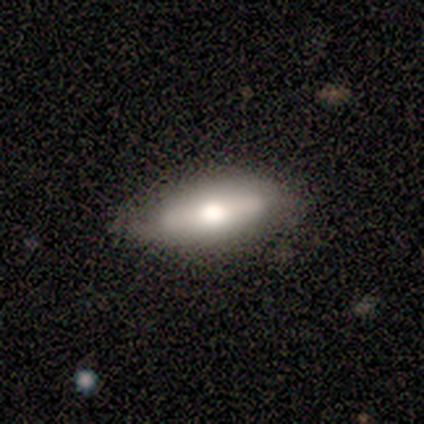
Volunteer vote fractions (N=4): Smooth or featured? 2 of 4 (50%, tied with featured or disk) said smooth. How rounded? 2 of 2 (100%) said in between. Merging? 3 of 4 (75%) said none.